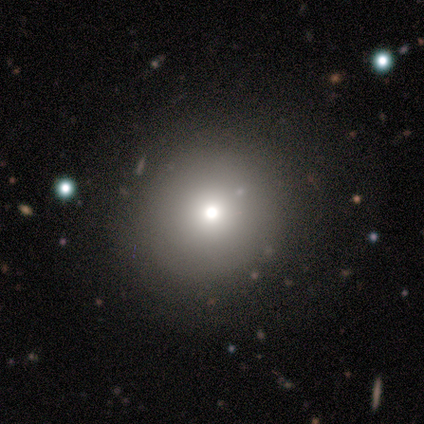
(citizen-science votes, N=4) A smooth galaxy with no disk features (75%) that is round (100%).

Vote fractions:
- Smooth or featured? smooth: 75% / star or artifact: 25% / featured or disk: 0%
- How rounded? round: 100% / in between: 0% / cigar-shaped: 0%
- Merging? none: 100% / minor disturbance: 0% / major disturbance: 0% / merger: 0%